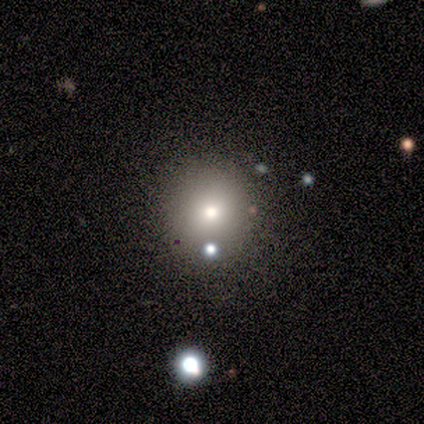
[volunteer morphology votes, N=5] Smooth or featured? 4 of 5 (80%) said smooth. How rounded? 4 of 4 (100%) said round. Merging? 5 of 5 (100%) said none.